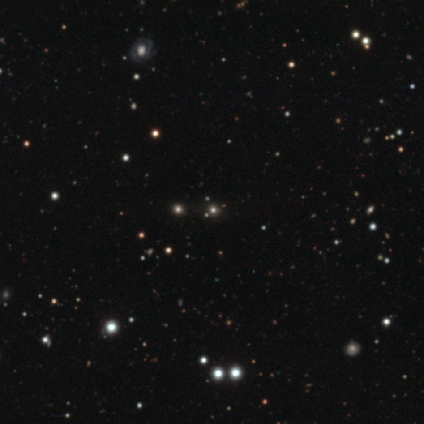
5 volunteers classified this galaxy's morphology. Q: Smooth or featured?
A: star or artifact (80%); runner-up: smooth (20%)